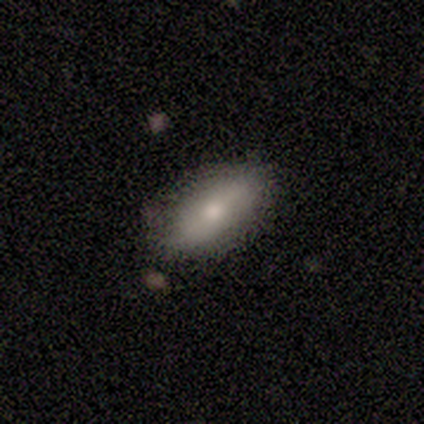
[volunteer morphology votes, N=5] Smooth or featured? 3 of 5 (60%) said smooth. How rounded? 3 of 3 (100%) said in between. Merging? 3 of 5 (60%) said none.